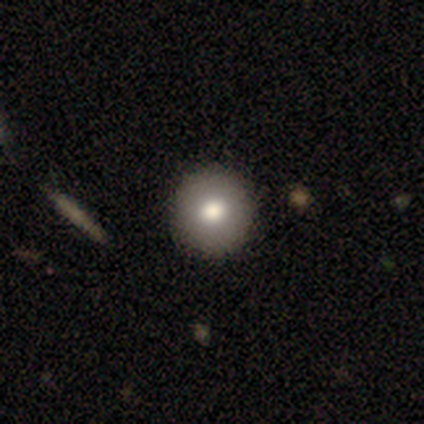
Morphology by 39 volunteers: This appears to be a smooth galaxy with no disk features (82%) that is round (97%). Merging: none (51%).